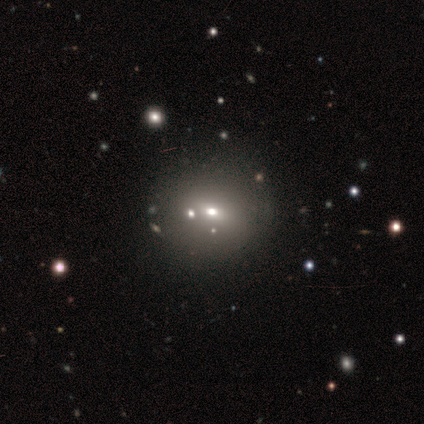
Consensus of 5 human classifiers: Morphology: type=smooth (80%); roundness=round (50%); merging=none (40%, tied with minor disturbance).